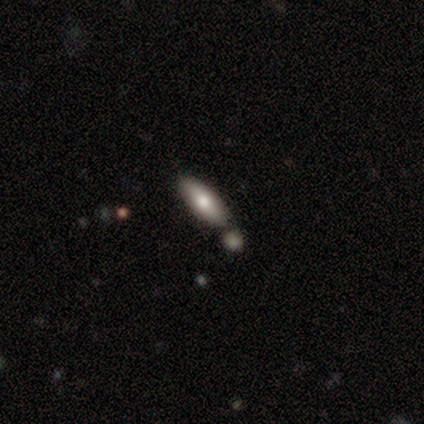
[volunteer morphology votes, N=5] Smooth or featured? smooth (60%)
How rounded? cigar-shaped (100%)
Merging? none (50%, tied with merger)